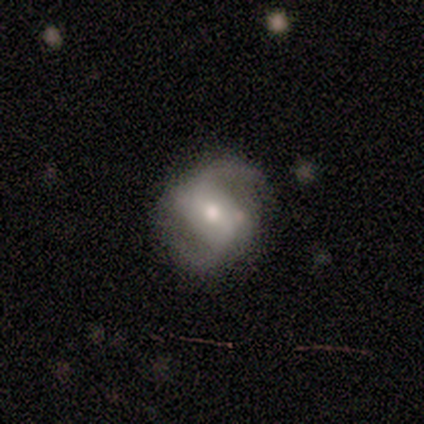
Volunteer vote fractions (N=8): Overall: featured or disk (88%). Edge-on disk: no (100%). Bar: no (43%; strong 29%). Spiral arms: yes (100%). Spiral arm count: 2 (100%). Spiral winding: medium (71%). Bulge size: moderate (86%). Merging: none (88%).